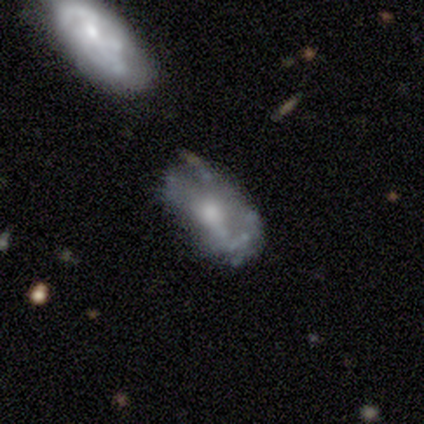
A featured or disk galaxy (100%) with no bar (100%), no spiral arms (60%) and a moderate central bulge (80%).

Vote fractions:
- Smooth or featured? featured or disk: 100% / smooth: 0% / star or artifact: 0%
- Edge-on disk? no: 100% / yes: 0%
- Bar? no: 100% / strong: 0% / weak: 0%
- Spiral arms? no: 60% / yes: 40%
- Bulge size? moderate: 80% / small: 20% / dominant: 0% / large: 0% / none: 0%
- Merging? none: 40% / minor disturbance: 20% / major disturbance: 20% / merger: 20%